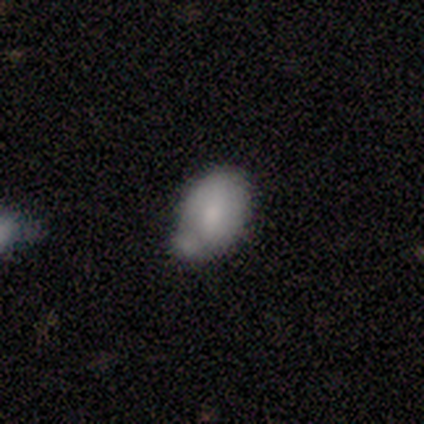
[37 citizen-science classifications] Smooth or featured?
  - smooth: 76% *
  - featured or disk: 22%
  - star or artifact: 3%
How rounded?
  - in between: 86% *
  - round: 11%
  - cigar-shaped: 4%
Merging?
  - none: 44% *
  - minor disturbance: 25%
  - merger: 25%
  - major disturbance: 6%